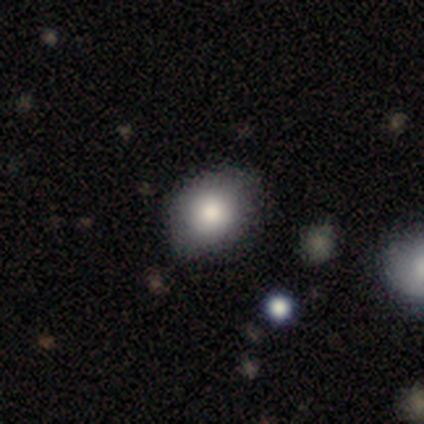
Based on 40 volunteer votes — Smooth or featured? 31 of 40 (78%) said smooth. How rounded? 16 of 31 (52%) said in between. Merging? 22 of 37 (59%) said none.